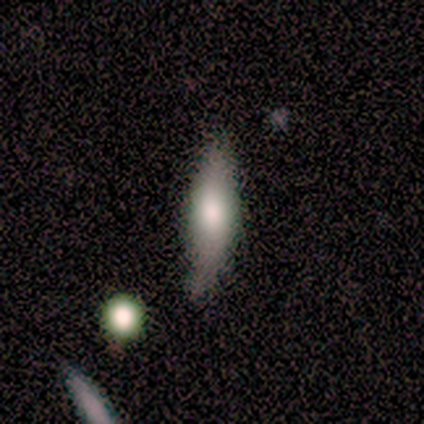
smooth-or-featured: smooth: 80% | featured or disk: 20% | star or artifact: 0%
  how-rounded: cigar-shaped: 100% | round: 0% | in between: 0%
  merging: none: 80% | minor disturbance: 20% | major disturbance: 0% | merger: 0%